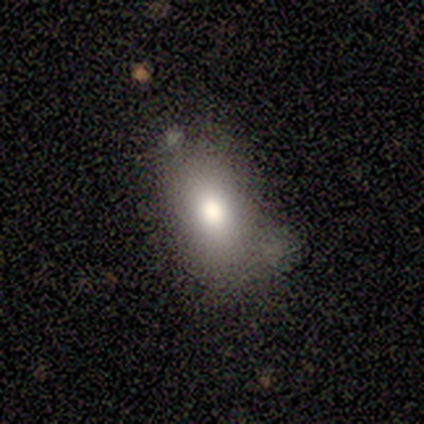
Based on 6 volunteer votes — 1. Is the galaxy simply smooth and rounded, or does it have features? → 100% smooth, 0% featured or disk, 0% star or artifact.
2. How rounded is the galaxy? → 67% in between, 17% round, 17% cigar-shaped.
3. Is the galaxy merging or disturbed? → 67% none, 33% minor disturbance, 0% major disturbance, 0% merger.